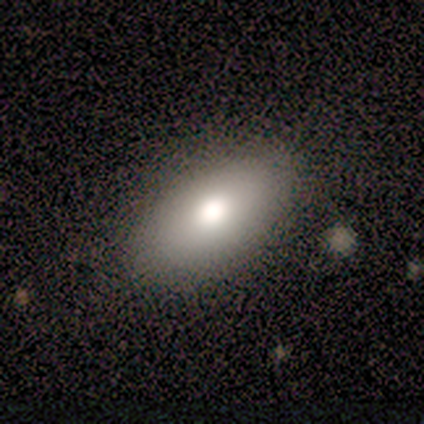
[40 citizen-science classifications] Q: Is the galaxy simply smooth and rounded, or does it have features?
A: smooth — 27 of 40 (68%).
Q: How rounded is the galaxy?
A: in between — 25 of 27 (93%).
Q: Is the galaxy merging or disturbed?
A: none — 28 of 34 (82%).